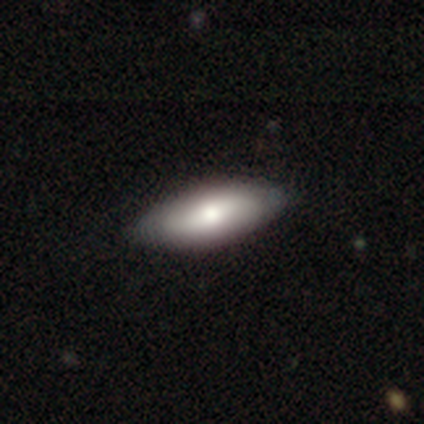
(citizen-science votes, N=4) Smooth or featured?
  - smooth: 75% *
  - featured or disk: 25%
  - star or artifact: 0%
How rounded?
  - in between: 100% *
  - round: 0%
  - cigar-shaped: 0%
Merging?
  - none: 100% *
  - minor disturbance: 0%
  - major disturbance: 0%
  - merger: 0%